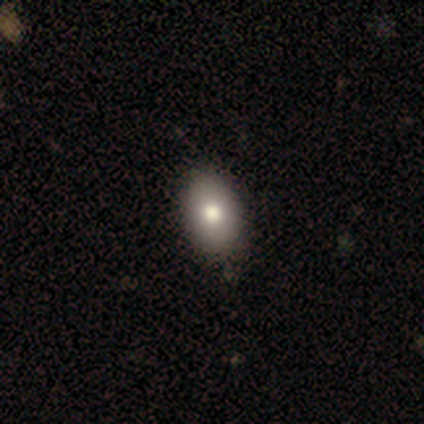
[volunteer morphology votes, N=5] smooth-or-featured: smooth: 80% | star or artifact: 20% | featured or disk: 0%
  how-rounded: in between: 100% | round: 0% | cigar-shaped: 0%
  merging: none: 100% | minor disturbance: 0% | major disturbance: 0% | merger: 0%